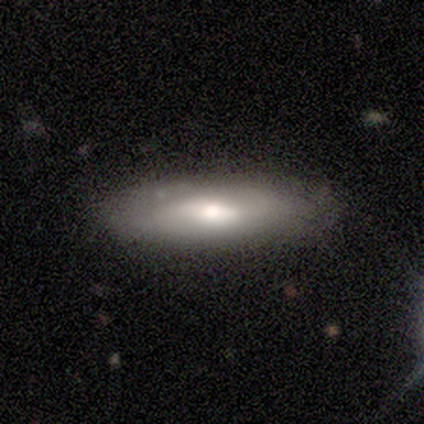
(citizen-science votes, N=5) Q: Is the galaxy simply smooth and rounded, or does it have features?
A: smooth — 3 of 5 (60%).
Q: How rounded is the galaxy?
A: in between — 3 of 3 (100%).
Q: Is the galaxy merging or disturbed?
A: none — 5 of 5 (100%).